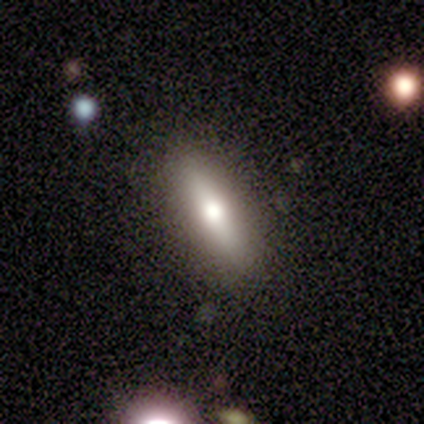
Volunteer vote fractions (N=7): Smooth or featured?
  - smooth: 71% *
  - featured or disk: 29%
  - star or artifact: 0%
How rounded?
  - cigar-shaped: 60% *
  - in between: 40%
  - round: 0%
Merging?
  - none: 86% *
  - major disturbance: 14%
  - minor disturbance: 0%
  - merger: 0%